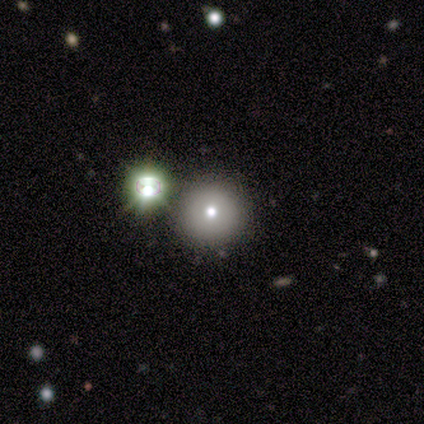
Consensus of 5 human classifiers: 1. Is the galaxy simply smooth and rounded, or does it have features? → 100% smooth, 0% featured or disk, 0% star or artifact.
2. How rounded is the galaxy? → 100% round, 0% in between, 0% cigar-shaped.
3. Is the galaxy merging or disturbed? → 80% none, 20% merger, 0% minor disturbance, 0% major disturbance.